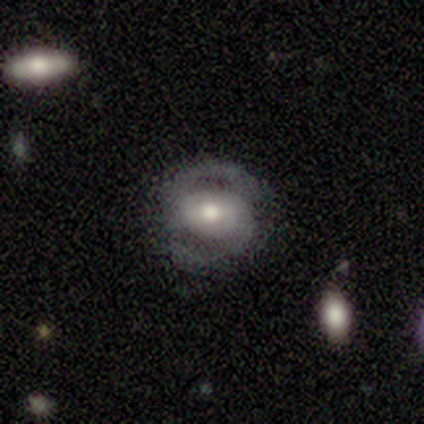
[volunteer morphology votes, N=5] smooth_or_featured: featured or disk (p=0.60) [alt: smooth p=0.40]
disk_edge_on: no (p=0.67) [alt: yes p=0.33]
bar: strong (p=0.50) [tied with: no p=0.50]
has_spiral_arms: yes (p=1.00)
spiral_winding: loose (p=1.00)
spiral_arm_count: 2 (p=1.00)
bulge_size: small (p=1.00)
merging: none (p=0.80) [alt: minor disturbance p=0.20]